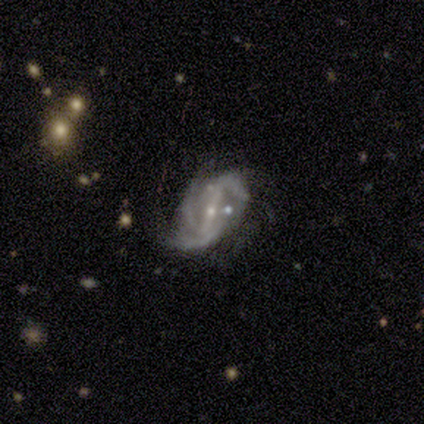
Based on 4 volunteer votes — This is clearly a featured or disk galaxy (100%). It is clearly not viewed edge-on (100%). Bar: clearly strong (100%). Spiral arm pattern: clearly yes (100%). Spiral arm count: likely 3 (75%). Spiral winding: possibly medium (50%, tied with loose). Central bulge: clearly small (100%). Merging: possibly none (50%).